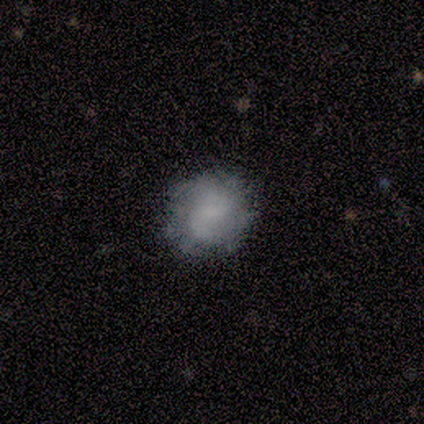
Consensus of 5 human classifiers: smooth-or-featured: smooth: 60% | featured or disk: 40% | star or artifact: 0%
  how-rounded: round: 67% | in between: 33% | cigar-shaped: 0%
  merging: none: 60% | minor disturbance: 40% | major disturbance: 0% | merger: 0%